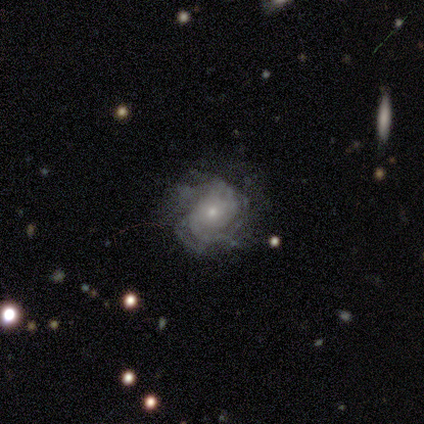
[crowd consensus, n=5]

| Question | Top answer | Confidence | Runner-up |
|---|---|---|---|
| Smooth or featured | featured or disk | 100% | — |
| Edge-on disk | no | 100% | — |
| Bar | no | 100% | — |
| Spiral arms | yes | 60% | no (40%) |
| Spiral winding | tight | 100% | — |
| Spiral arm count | can't tell | 67% | 4 (33%) |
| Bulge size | small | 80% | moderate (20%) |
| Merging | none | 40% | tied: minor disturbance (40%) |